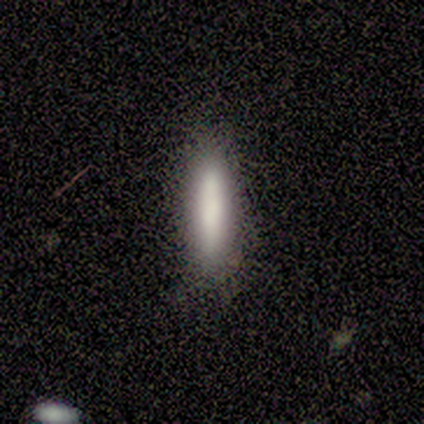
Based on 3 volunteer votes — smooth_or_featured: smooth (p=1.00)
how_rounded: cigar-shaped (p=1.00)
merging: none (p=0.67) [alt: minor disturbance p=0.33]